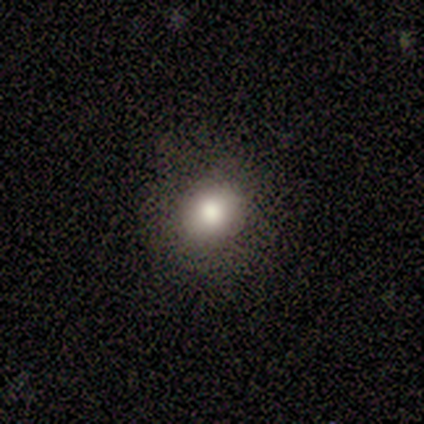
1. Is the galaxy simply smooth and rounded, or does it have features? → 60% smooth, 20% featured or disk, 20% star or artifact.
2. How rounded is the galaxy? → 67% round, 33% in between, 0% cigar-shaped.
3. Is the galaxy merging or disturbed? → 100% none, 0% minor disturbance, 0% major disturbance, 0% merger.